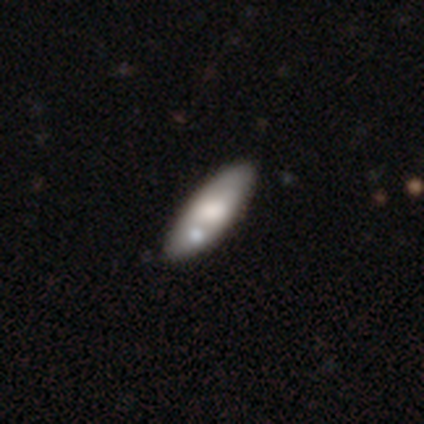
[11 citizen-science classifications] smooth_or_featured: smooth (p=0.64) [alt: featured or disk p=0.36]
how_rounded: in between (p=0.71) [alt: cigar-shaped p=0.29]
merging: none (p=0.73) [alt: merger p=0.27]